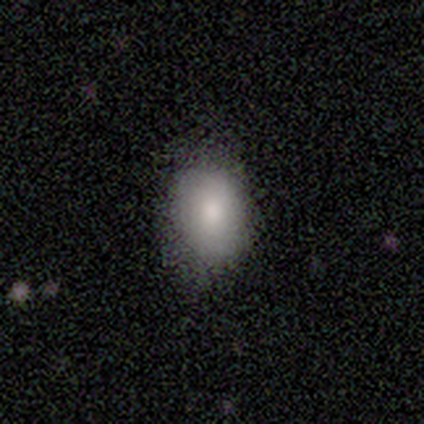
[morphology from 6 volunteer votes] A smooth galaxy with no disk features (83%) that is in between round and cigar-shaped (80%).

Vote fractions:
- Smooth or featured? smooth: 83% / featured or disk: 17% / star or artifact: 0%
- How rounded? in between: 80% / round: 20% / cigar-shaped: 0%
- Merging? none: 100% / minor disturbance: 0% / major disturbance: 0% / merger: 0%